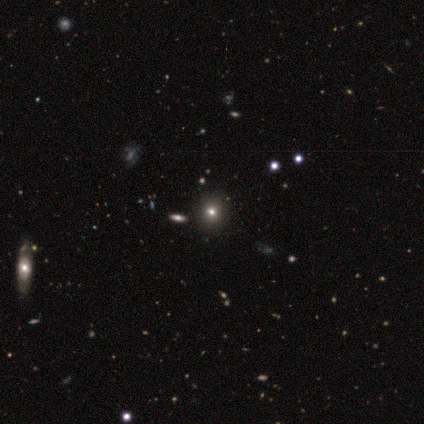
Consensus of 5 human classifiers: This is clearly a smooth galaxy (80%). How rounded: likely round (75%). Merging: likely none (60%).